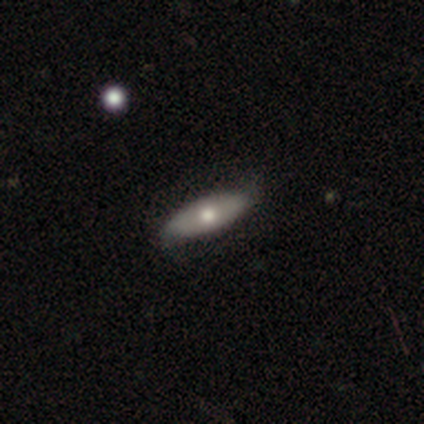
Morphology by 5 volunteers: A smooth galaxy with no disk features (60%) that is in between round and cigar-shaped (100%).

Vote fractions:
- Smooth or featured? smooth: 60% / featured or disk: 40% / star or artifact: 0%
- How rounded? in between: 100% / round: 0% / cigar-shaped: 0%
- Merging? minor disturbance: 60% / none: 40% / major disturbance: 0% / merger: 0%